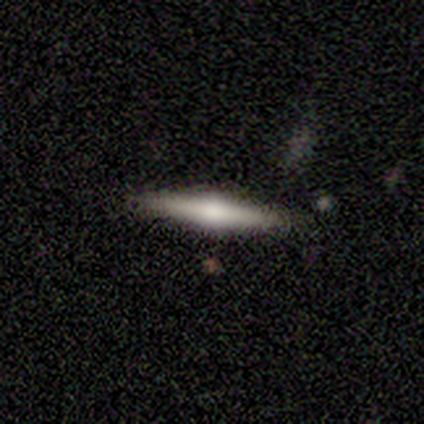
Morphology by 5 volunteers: Smooth or featured? 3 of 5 (60%) said smooth. How rounded? 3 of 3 (100%) said cigar-shaped. Merging? 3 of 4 (75%) said none.